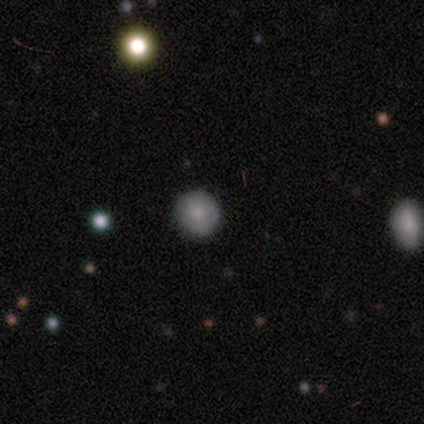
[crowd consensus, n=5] A smooth galaxy with no disk features (60%) that is round (100%).

Vote fractions:
- Smooth or featured? smooth: 60% / featured or disk: 40% / star or artifact: 0%
- How rounded? round: 100% / in between: 0% / cigar-shaped: 0%
- Merging? none: 100% / minor disturbance: 0% / major disturbance: 0% / merger: 0%